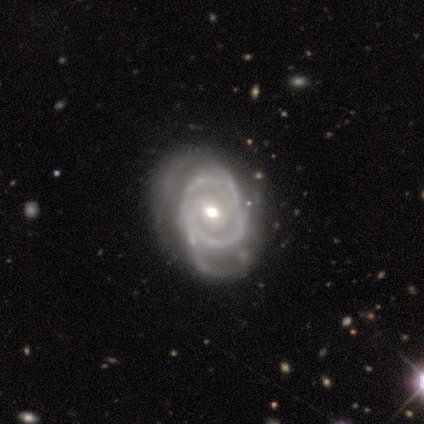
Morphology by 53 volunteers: Smooth or featured? featured or disk (91%)
Edge-on disk? no (100%)
Bar? no (54%)
Spiral arms? yes (96%)
Spiral winding? tight (65%)
Spiral arm count? 2 (41%)
Bulge size? moderate (67%)
Merging? none (61%)